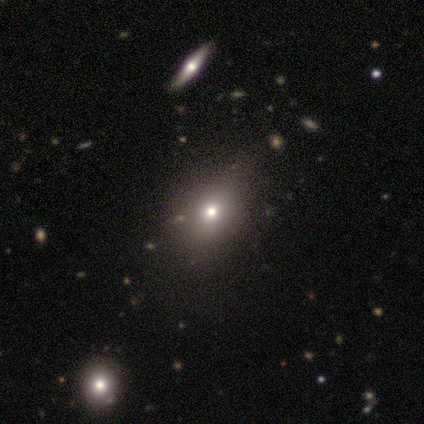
A star or artifact, not a galaxy (60%).